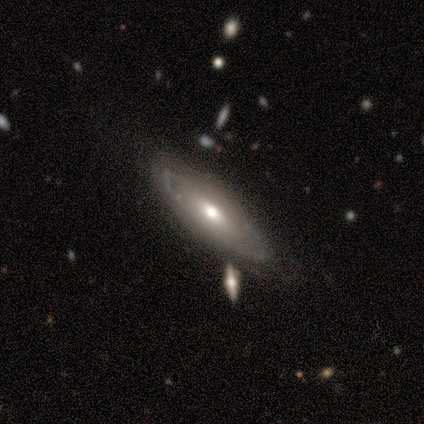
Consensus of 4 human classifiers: Overall: featured or disk (75%). Edge-on disk: no (100%). Bar: no (67%; weak 33%). Spiral arms: no (67%; yes 33%). Bulge size: moderate (100%). Merging: none (75%).